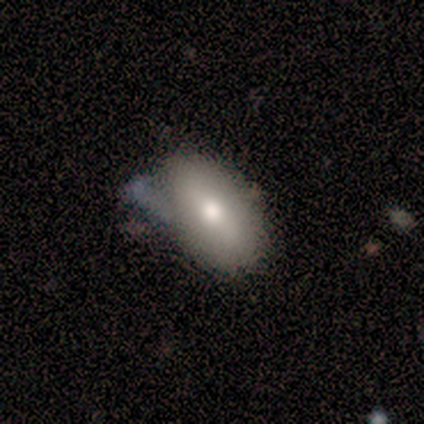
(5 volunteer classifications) Smooth or featured? smooth (80%)
How rounded? in between (75%)
Merging? minor disturbance (60%)